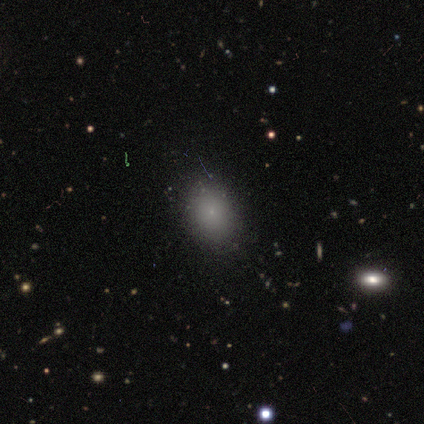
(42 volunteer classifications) Smooth or featured? smooth (76%)
How rounded? in between (69%)
Merging? none (86%)